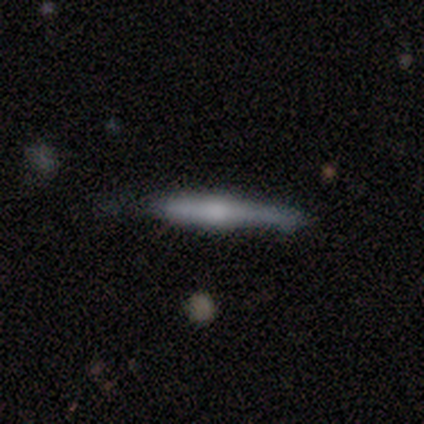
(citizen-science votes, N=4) This appears to be a smooth galaxy with no disk features (50%, tied with featured or disk) that is cigar-shaped (100%). Merging: none (75%).